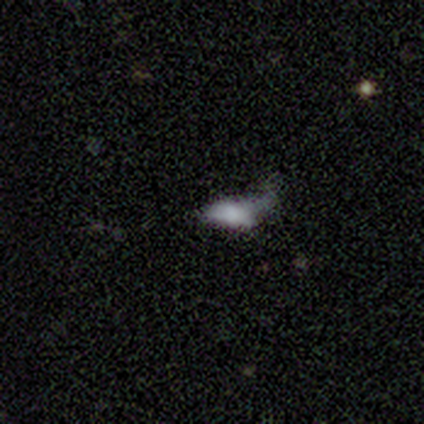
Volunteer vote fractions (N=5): A smooth galaxy with no disk features (100%) that is in between round and cigar-shaped (80%).

Vote fractions:
- Smooth or featured? smooth: 100% / featured or disk: 0% / star or artifact: 0%
- How rounded? in between: 80% / cigar-shaped: 20% / round: 0%
- Merging? major disturbance: 80% / none: 20% / minor disturbance: 0% / merger: 0%